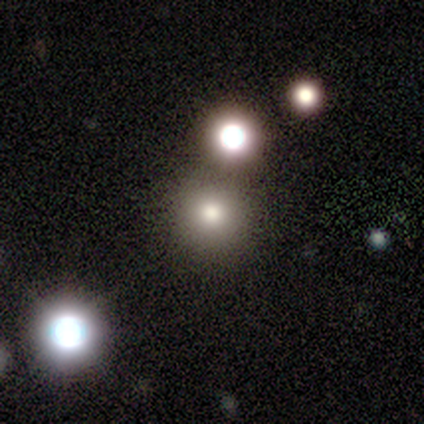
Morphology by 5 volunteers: This appears to be a smooth galaxy with no disk features (80%) that is round (100%). Merging: none (100%).